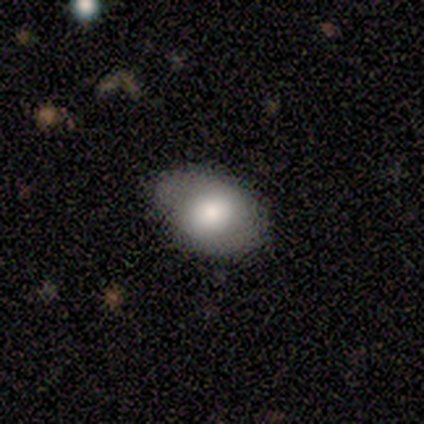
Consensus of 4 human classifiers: Smooth or featured?
  - smooth: 75% *
  - featured or disk: 25%
  - star or artifact: 0%
How rounded?
  - in between: 100% *
  - round: 0%
  - cigar-shaped: 0%
Merging?
  - none: 100% *
  - minor disturbance: 0%
  - major disturbance: 0%
  - merger: 0%